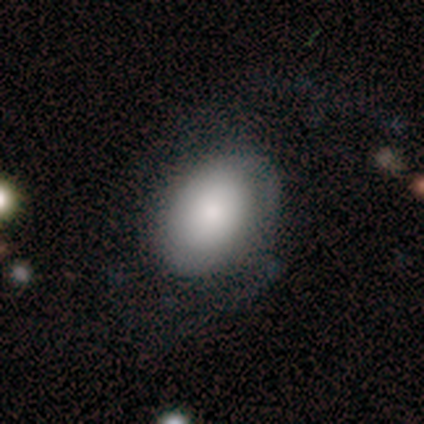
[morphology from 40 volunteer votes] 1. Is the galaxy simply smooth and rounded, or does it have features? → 72% smooth, 22% featured or disk, 5% star or artifact.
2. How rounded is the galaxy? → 76% in between, 24% round, 0% cigar-shaped.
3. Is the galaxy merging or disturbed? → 53% none, 29% minor disturbance, 18% major disturbance, 0% merger.